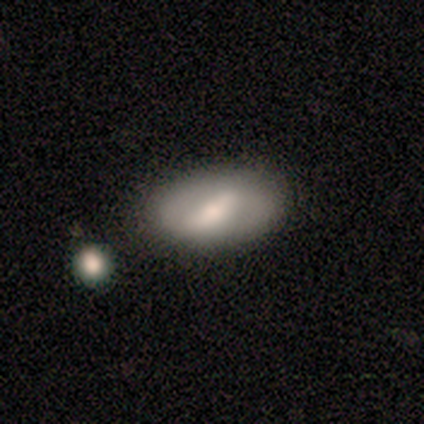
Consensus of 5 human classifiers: This is marginally a smooth galaxy (40%, tied with featured or disk). How rounded: clearly in between (100%). Merging: clearly none (100%).